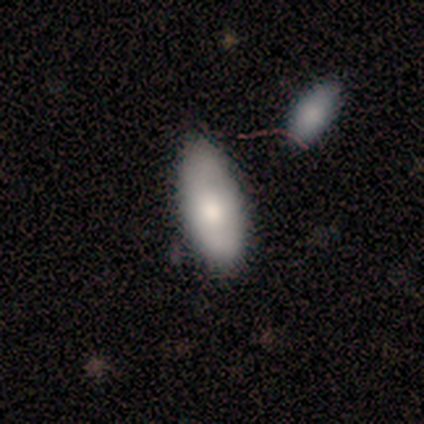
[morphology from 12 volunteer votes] Smooth or featured? smooth (75%)
How rounded? in between (100%)
Merging? none (64%)